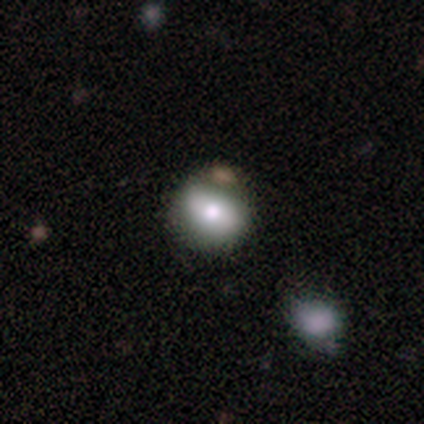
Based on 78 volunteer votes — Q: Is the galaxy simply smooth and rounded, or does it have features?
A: smooth — 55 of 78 (71%).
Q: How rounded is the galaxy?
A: in between — 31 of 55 (56%).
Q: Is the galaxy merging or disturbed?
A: none — 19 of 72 (26%).